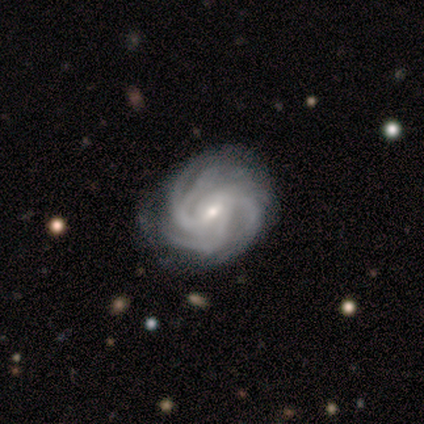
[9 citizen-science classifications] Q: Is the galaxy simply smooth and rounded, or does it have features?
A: featured or disk — 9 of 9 (100%).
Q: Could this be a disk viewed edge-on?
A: no — 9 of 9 (100%).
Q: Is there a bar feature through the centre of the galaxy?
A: weak — 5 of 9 (56%).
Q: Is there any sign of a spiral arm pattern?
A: yes — 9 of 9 (100%).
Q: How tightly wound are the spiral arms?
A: tight — 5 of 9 (56%).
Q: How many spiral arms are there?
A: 3 — 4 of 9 (44%).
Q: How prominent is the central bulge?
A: small — 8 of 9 (89%).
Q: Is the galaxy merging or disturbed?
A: none — 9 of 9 (100%).